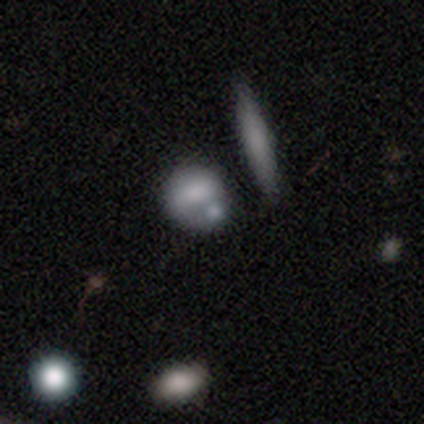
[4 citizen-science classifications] Q: Smooth or featured?
A: smooth (50%); tied with: featured or disk (50%)
Q: How rounded?
A: round (100%)
Q: Merging?
A: minor disturbance (75%); runner-up: none (25%)